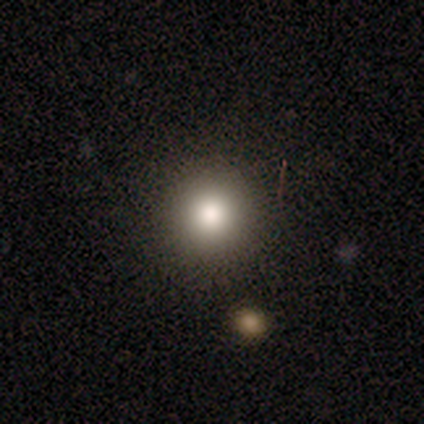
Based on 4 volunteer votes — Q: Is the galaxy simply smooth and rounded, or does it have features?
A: smooth — 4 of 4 (100%).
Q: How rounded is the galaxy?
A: round — 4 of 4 (100%).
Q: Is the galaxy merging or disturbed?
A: none — 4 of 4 (100%).